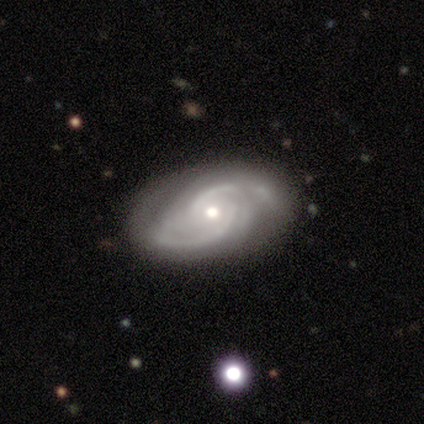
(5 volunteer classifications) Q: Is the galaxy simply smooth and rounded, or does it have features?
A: featured or disk — 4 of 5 (80%).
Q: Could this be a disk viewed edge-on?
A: no — 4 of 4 (100%).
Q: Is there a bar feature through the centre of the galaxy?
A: weak — 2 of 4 (50%, tied with no).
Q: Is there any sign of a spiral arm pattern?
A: yes — 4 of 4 (100%).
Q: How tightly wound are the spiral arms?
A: medium — 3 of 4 (75%).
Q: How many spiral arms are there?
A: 2 — 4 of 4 (100%).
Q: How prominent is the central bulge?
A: moderate — 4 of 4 (100%).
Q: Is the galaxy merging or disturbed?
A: none — 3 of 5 (60%).